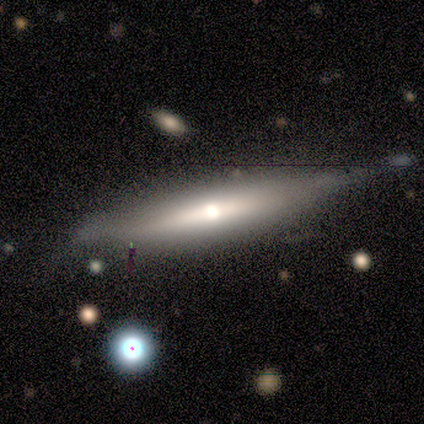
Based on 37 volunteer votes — Volunteers were most divided on "merging": none: 49%, minor disturbance: 43%, merger: 6%, major disturbance: 3%. More confident: edge-on disk — yes (90%); edge-on bulge — rounded (83%); smooth or featured — featured or disk (54%).